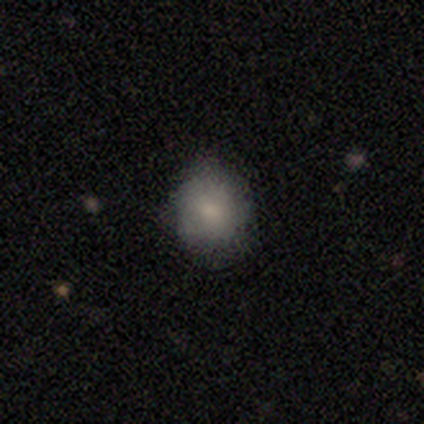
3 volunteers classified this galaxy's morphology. Volunteers were most divided on "merging": none: 67%, minor disturbance: 33%, major disturbance: 0%, merger: 0%. More confident: smooth or featured — smooth (100%); how rounded — round (100%).